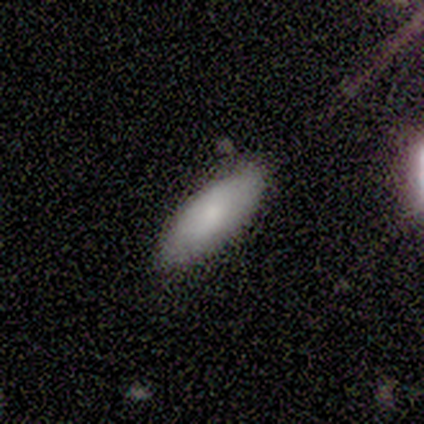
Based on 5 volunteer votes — smooth-or-featured: smooth: 80% | featured or disk: 20% | star or artifact: 0%
  how-rounded: in between: 75% | cigar-shaped: 25% | round: 0%
  merging: none: 80% | minor disturbance: 20% | major disturbance: 0% | merger: 0%